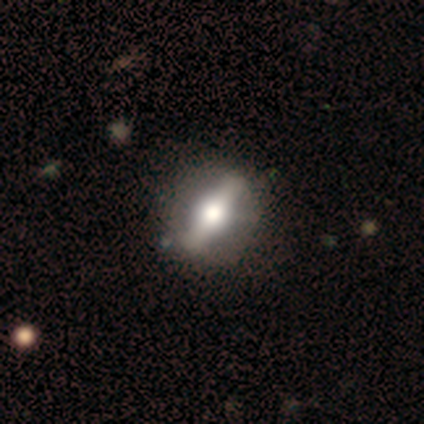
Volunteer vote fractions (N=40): smooth-or-featured: featured or disk: 65% | smooth: 28% | star or artifact: 8%
  disk-edge-on: no: 65% | yes: 35%
    bar: strong: 94% | weak: 6% | no: 0%
    has-spiral-arms: no: 100% | yes: 0%
    bulge-size: large: 47% (tied) | moderate: 47% (tied) | small: 6% | dominant: 0% | none: 0%
  merging: none: 62% | minor disturbance: 11% | major disturbance: 0% | merger: 0%